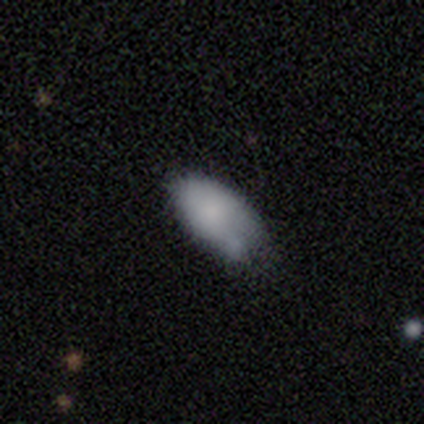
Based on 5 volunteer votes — Q: Smooth or featured?
A: smooth (100%)
Q: How rounded?
A: in between (100%)
Q: Merging?
A: none (60%); runner-up: minor disturbance (40%)